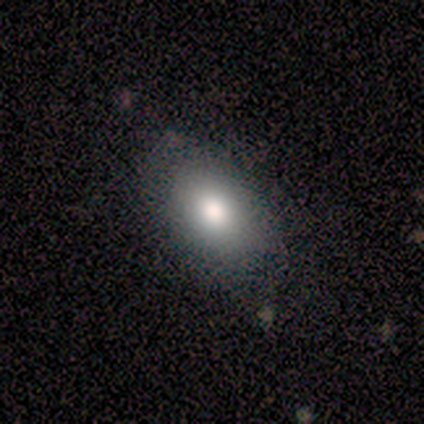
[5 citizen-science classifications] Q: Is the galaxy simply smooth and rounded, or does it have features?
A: smooth — 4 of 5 (80%).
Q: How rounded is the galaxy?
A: in between — 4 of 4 (100%).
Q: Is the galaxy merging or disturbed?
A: none — 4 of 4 (100%).